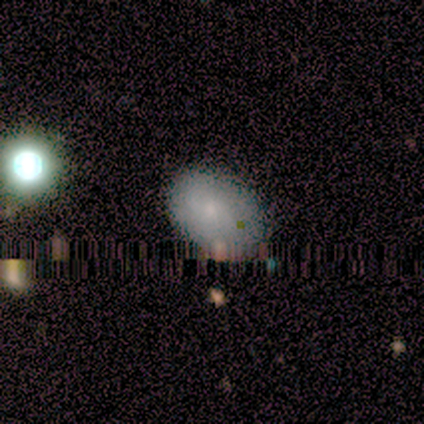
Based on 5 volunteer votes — A smooth galaxy with no disk features (80%) that is in between round and cigar-shaped (75%). Merging: none (100%).